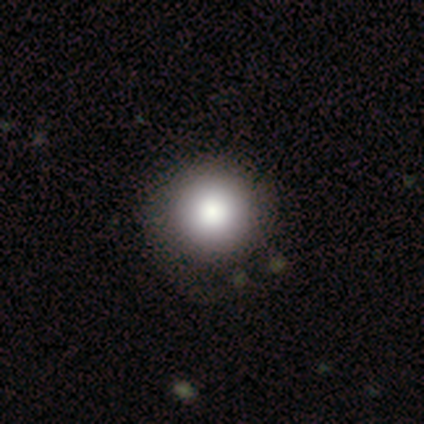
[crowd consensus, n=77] Smooth or featured?
  - smooth: 90% *
  - featured or disk: 5%
  - star or artifact: 5%
How rounded?
  - round: 99% *
  - cigar-shaped: 1%
  - in between: 0%
Merging?
  - none: 41% *
  - minor disturbance: 5%
  - major disturbance: 5%
  - merger: 0%